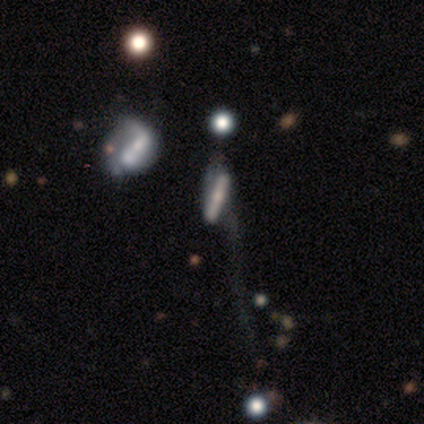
Overall: smooth (60%; featured or disk 20%). How rounded: cigar-shaped (67%; in between 33%). Merging: major disturbance (75%).